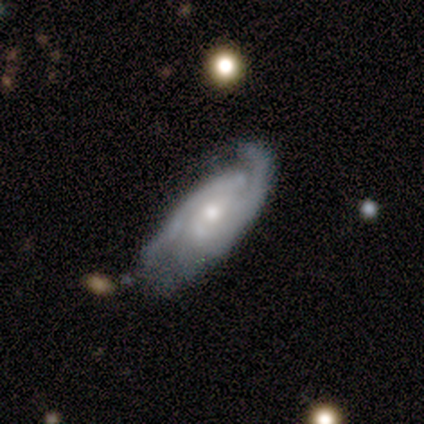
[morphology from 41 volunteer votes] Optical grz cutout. It shows a featured or disk galaxy (78%) with no bar (48%), 2 (79%) tight (46%) spiral arms (97%) and a moderate central bulge (66%). Merging: none (58%).